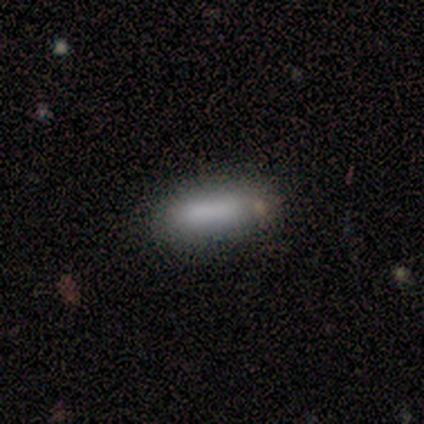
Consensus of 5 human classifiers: Volunteers were most divided on "how rounded" (2-way tie): in between: 50%, cigar-shaped: 50%, round: 0%. More confident: merging — none (100%); smooth or featured — smooth (80%).